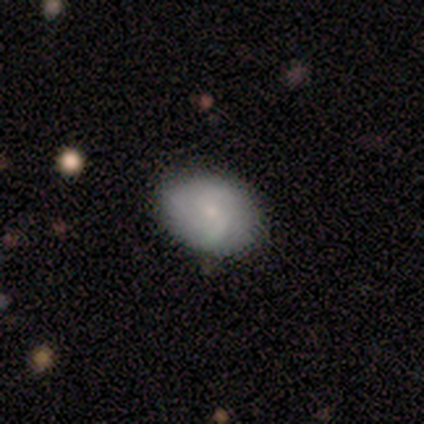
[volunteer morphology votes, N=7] This is likely a featured or disk galaxy (71%). It is clearly not viewed edge-on (100%). Bar: likely no (60%). Spiral arm pattern: clearly yes (100%). Spiral arm count: marginally 2 (40%, tied with can't tell). Spiral winding: clearly medium (80%). Central bulge: clearly small (80%). Merging: clearly none (100%).